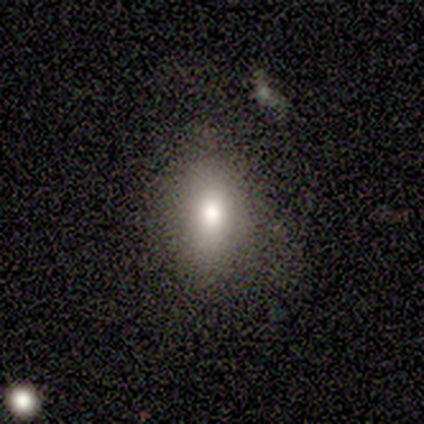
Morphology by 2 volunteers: A smooth galaxy with no disk features (50%, tied with star or artifact) that is cigar-shaped (100%).

Vote fractions:
- Smooth or featured? smooth: 50% (tied) / star or artifact: 50% (tied) / featured or disk: 0%
- How rounded? cigar-shaped: 100% / round: 0% / in between: 0%
- Merging? none: 100% / minor disturbance: 0% / major disturbance: 0% / merger: 0%